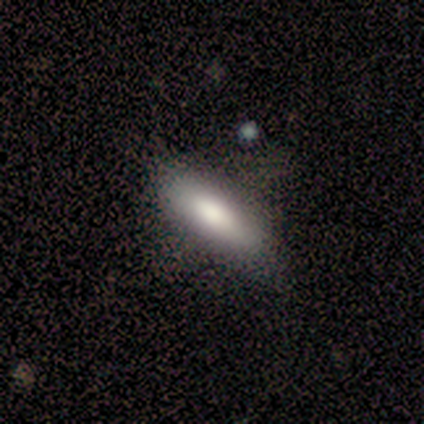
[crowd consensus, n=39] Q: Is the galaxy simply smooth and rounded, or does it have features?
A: smooth — 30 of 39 (77%).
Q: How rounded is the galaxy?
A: in between — 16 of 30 (53%).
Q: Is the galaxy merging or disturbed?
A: none — 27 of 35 (77%).